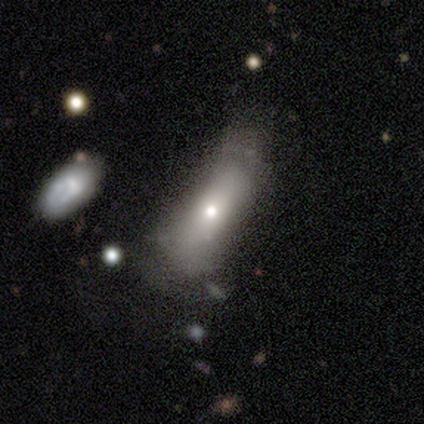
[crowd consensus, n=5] Smooth or featured?
  - smooth: 80% *
  - featured or disk: 20%
  - star or artifact: 0%
How rounded?
  - in between: 75% *
  - round: 25%
  - cigar-shaped: 0%
Merging?
  - minor disturbance: 60% *
  - none: 20%
  - major disturbance: 20%
  - merger: 0%